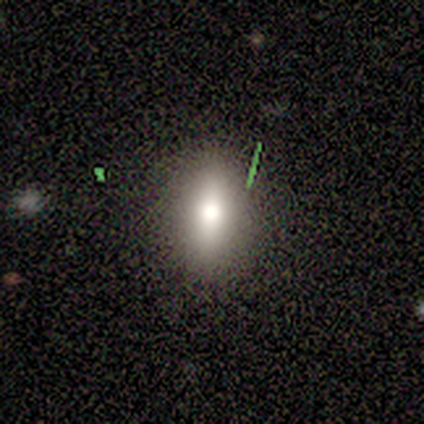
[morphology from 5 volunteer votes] smooth 80%, star or artifact 20%, featured or disk 0%. Down the decision tree: how rounded — cigar-shaped (75%); merging — none (75%).